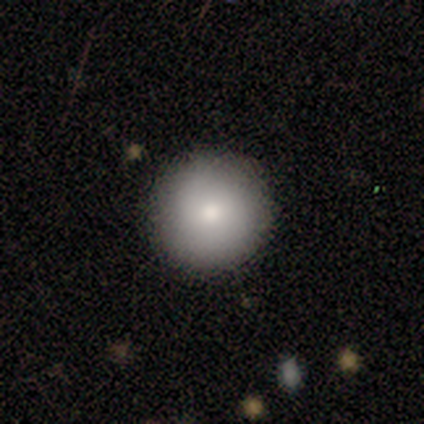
Overall: smooth (80%). How rounded: round (100%). Merging: none (100%).